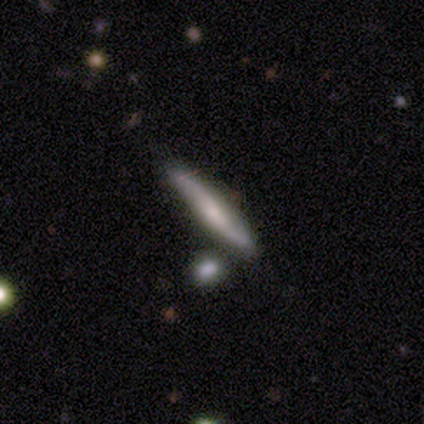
smooth-or-featured: featured or disk: 52% | smooth: 45% | star or artifact: 2%
  disk-edge-on: yes: 90% | no: 10%
    edge-on-bulge: rounded: 42% | none: 37% | boxy: 21%
  merging: none: 77% | minor disturbance: 18% | major disturbance: 3% | merger: 3%